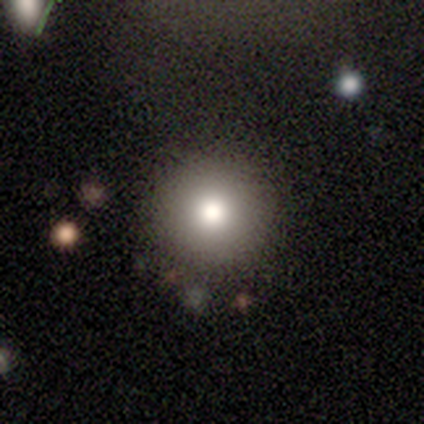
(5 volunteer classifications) Smooth or featured? 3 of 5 (60%) said smooth. How rounded? 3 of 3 (100%) said round. Merging? 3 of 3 (100%) said none.